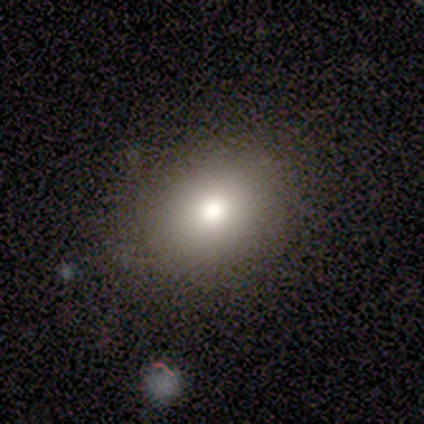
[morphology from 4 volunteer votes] smooth_or_featured: smooth (p=0.50) [alt: featured or disk p=0.25]
how_rounded: round (p=1.00)
merging: none (p=0.67) [alt: minor disturbance p=0.33]